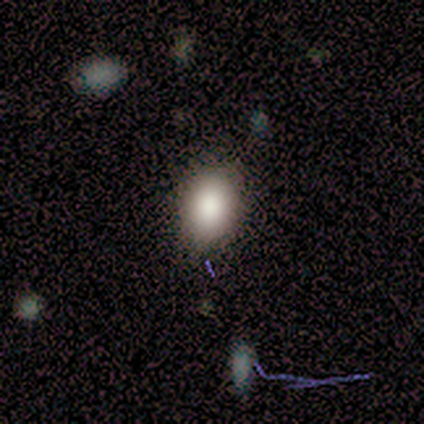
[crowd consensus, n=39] Smooth or featured: smooth — 74% (featured or disk — 15%)
How rounded: in between — 72% (round — 28%)
Merging: none — 86% (minor disturbance — 11%)